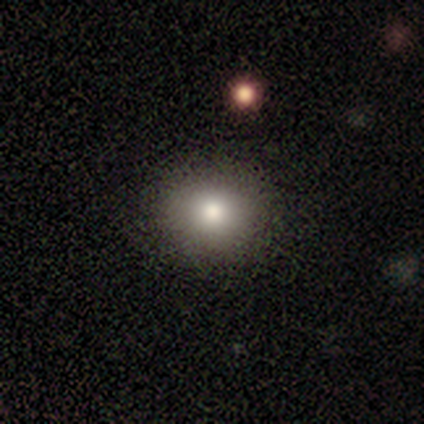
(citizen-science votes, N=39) This appears to be a smooth galaxy with no disk features (87%) that is round (68%). Merging: none (74%).